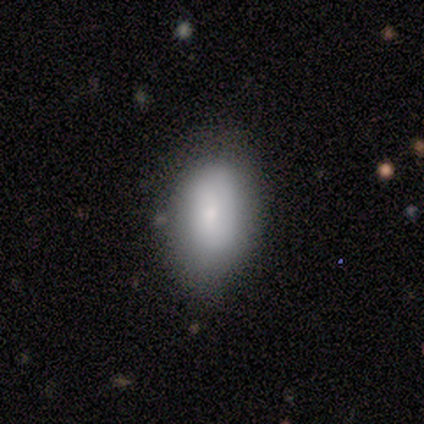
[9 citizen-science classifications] Q: Smooth or featured?
A: smooth (89%); runner-up: featured or disk (11%)
Q: How rounded?
A: in between (100%)
Q: Merging?
A: none (78%); runner-up: minor disturbance (22%)